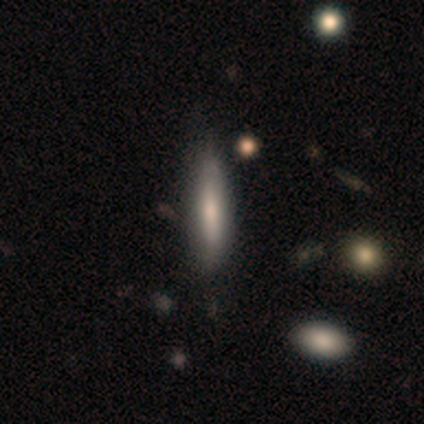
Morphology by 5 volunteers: This appears to be a smooth galaxy with no disk features (40%, tied with featured or disk) that is cigar-shaped (100%). Merging: none (50%, tied with minor disturbance).